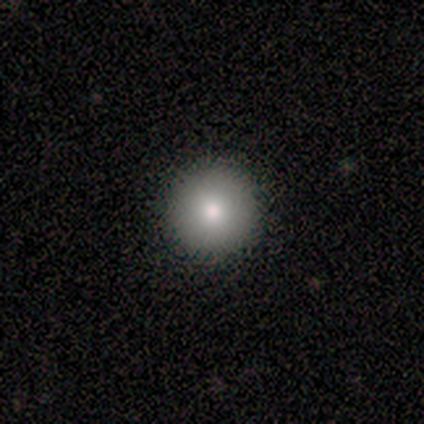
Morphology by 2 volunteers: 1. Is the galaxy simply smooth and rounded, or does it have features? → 50% smooth (tied), 50% star or artifact (tied), 0% featured or disk.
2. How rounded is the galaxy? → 100% round, 0% in between, 0% cigar-shaped.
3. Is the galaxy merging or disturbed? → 100% none, 0% minor disturbance, 0% major disturbance, 0% merger.